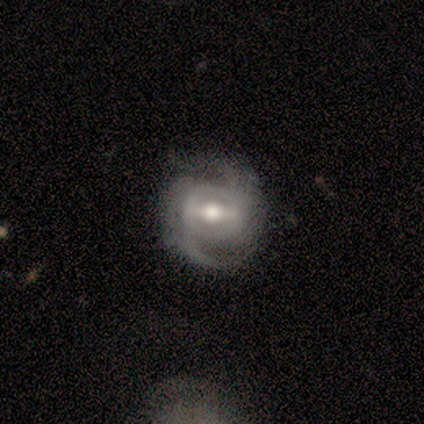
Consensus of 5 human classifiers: Morphology: type=featured or disk (80%); edge-on=no (100%); bar=strong (50%, tied with weak); spiral arms=yes (100%); winding=medium (50%); arm count=2 (75%); bulge=moderate (100%); merging=none (80%).